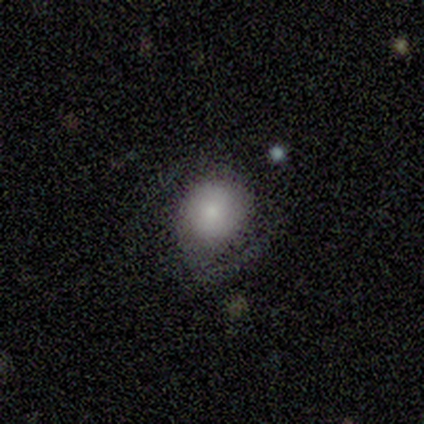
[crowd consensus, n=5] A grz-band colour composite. It shows a smooth galaxy with no disk features (80%) that is round (100%). Merging: none (80%).